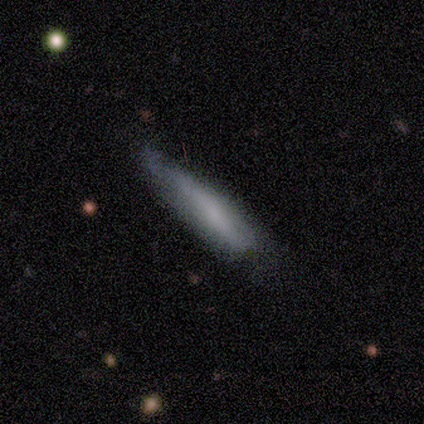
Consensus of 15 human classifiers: smooth_or_featured: smooth (p=0.60) [alt: featured or disk p=0.33]
how_rounded: cigar-shaped (p=0.89) [alt: in between p=0.11]
merging: none (p=0.64) [alt: minor disturbance p=0.36]